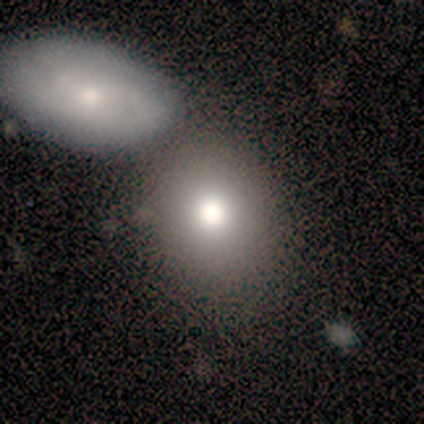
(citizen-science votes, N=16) A smooth galaxy with no disk features (69%) that is in between round and cigar-shaped (73%). Merging: none (40%, tied with merger).